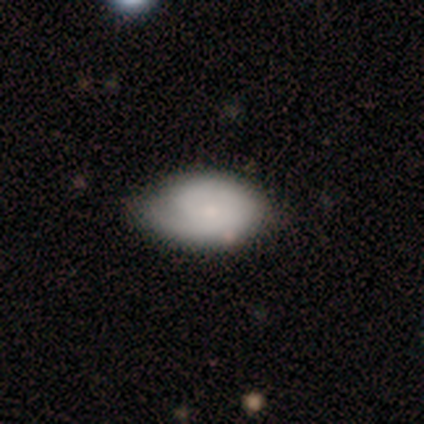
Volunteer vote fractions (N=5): Smooth or featured: smooth — 60% (featured or disk — 40%)
How rounded: in between — 100%
Merging: minor disturbance — 60% (none — 40%)